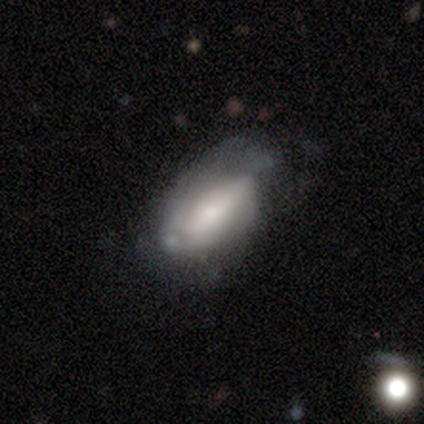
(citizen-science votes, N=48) Smooth or featured?
  - smooth: 50% *
  - featured or disk: 44%
  - star or artifact: 6%
How rounded?
  - in between: 88% *
  - cigar-shaped: 12%
  - round: 0%
Merging?
  - none: 51% *
  - minor disturbance: 33%
  - major disturbance: 13%
  - merger: 2%